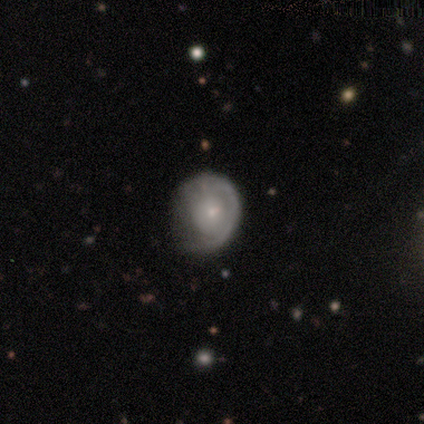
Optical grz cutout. It shows a featured or disk galaxy (54%) with no bar (86%), 1 (59%) tight (77%) spiral arms (63%) and a small central bulge (67%). Merging: none (46%).